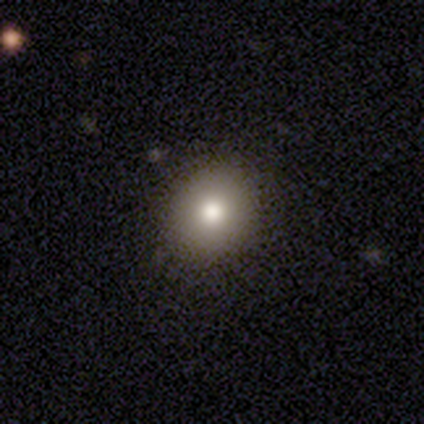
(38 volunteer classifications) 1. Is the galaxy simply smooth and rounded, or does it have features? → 61% smooth, 29% star or artifact, 11% featured or disk.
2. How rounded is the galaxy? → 83% round, 17% in between, 0% cigar-shaped.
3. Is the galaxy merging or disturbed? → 85% none, 15% minor disturbance, 0% major disturbance, 0% merger.